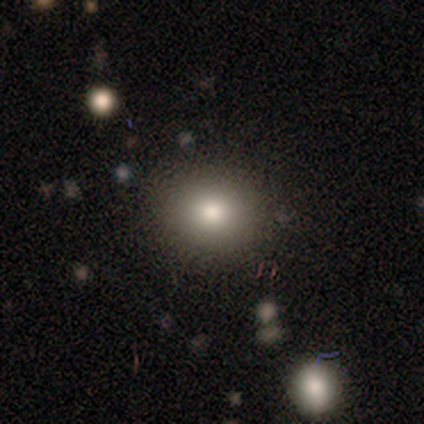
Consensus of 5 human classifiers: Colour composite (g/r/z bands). It shows a smooth galaxy with no disk features (80%) that is round (75%). Merging: none (75%).